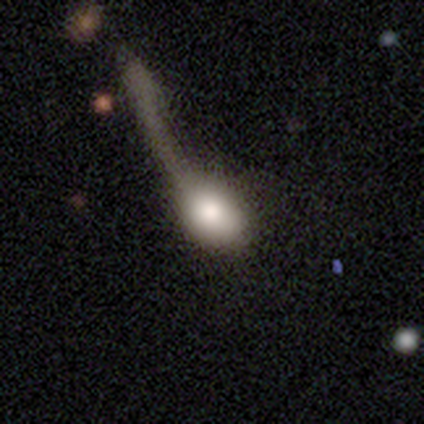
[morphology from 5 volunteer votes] smooth-or-featured: smooth: 80% | featured or disk: 20% | star or artifact: 0%
  how-rounded: round: 50% (tied) | in between: 50% (tied) | cigar-shaped: 0%
  merging: major disturbance: 60% | minor disturbance: 20% | merger: 20% | none: 0%